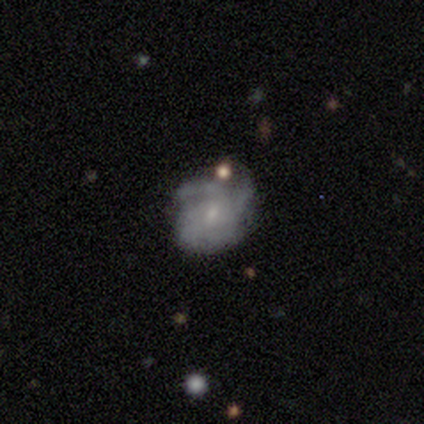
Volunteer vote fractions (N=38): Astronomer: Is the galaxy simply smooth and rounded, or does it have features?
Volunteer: featured or disk — 84%.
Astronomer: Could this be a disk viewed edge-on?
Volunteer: no — 100%.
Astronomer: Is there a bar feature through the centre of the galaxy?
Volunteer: no — 75%.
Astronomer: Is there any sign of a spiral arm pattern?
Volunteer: yes — 91%.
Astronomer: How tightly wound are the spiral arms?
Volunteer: tight — 55% (runner-up: medium, 34%).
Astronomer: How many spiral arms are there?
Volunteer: can't tell — 45% (runner-up: 4, 21%).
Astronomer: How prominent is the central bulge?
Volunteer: small — 78%.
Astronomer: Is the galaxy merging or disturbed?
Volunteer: none — 57%.